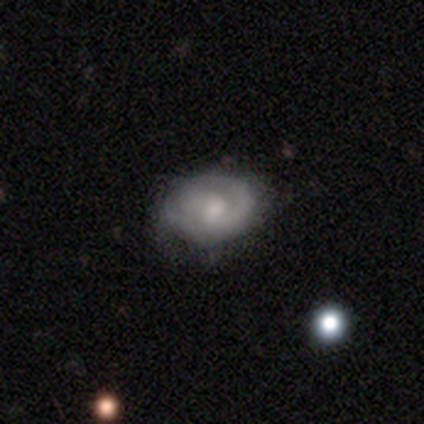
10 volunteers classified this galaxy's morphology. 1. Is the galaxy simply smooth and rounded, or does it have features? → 70% featured or disk, 30% smooth, 0% star or artifact.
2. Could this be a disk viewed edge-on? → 100% no, 0% yes.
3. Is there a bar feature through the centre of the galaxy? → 86% weak, 14% no, 0% strong.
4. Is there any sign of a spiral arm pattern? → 86% yes, 14% no.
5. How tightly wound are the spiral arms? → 50% tight, 33% medium, 17% loose.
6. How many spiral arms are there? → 83% 2, 17% can't tell, 0% 1, 0% 3, 0% 4, 0% more than 4.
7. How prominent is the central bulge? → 57% moderate, 29% small, 14% none, 0% dominant, 0% large.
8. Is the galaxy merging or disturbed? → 90% none, 10% minor disturbance, 0% major disturbance, 0% merger.